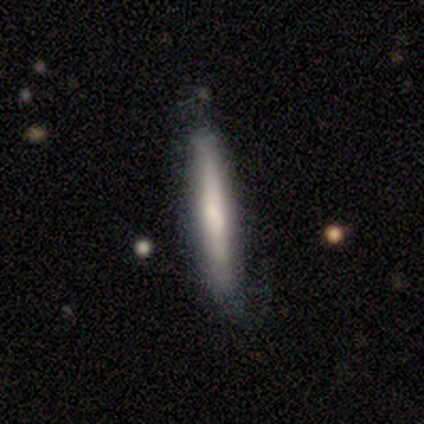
Smooth or featured: smooth — 59% (featured or disk — 33%)
How rounded: cigar-shaped — 96% (round — 4%)
Merging: none — 81% (minor disturbance — 14%)